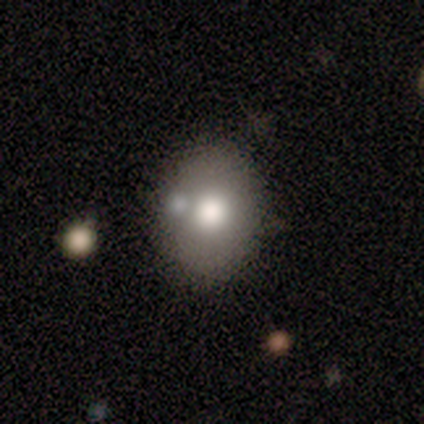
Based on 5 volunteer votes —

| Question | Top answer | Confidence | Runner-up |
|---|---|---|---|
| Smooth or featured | smooth | 60% | featured or disk (20%) |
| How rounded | round | 67% | in between (33%) |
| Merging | none | 75% | merger (25%) |